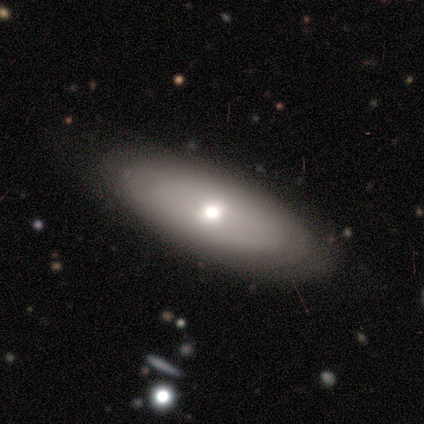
Volunteers were most divided on "how rounded" (3-way tie): round: 33%, in between: 33%, cigar-shaped: 33%. More confident: merging — none (80%); smooth or featured — smooth (60%).